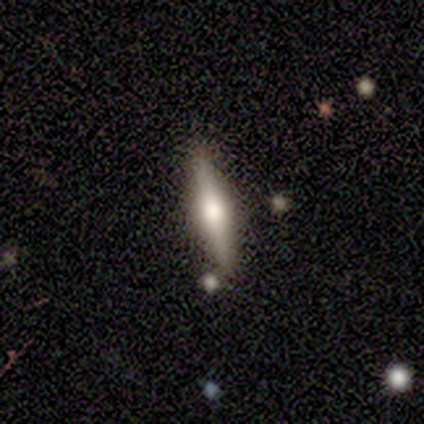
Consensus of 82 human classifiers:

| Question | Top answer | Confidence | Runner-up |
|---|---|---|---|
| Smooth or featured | featured or disk | 66% | smooth (27%) |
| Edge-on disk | yes | 96% | no (4%) |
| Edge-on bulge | rounded | 88% | boxy (8%) |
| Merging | none | 88% | merger (7%) |